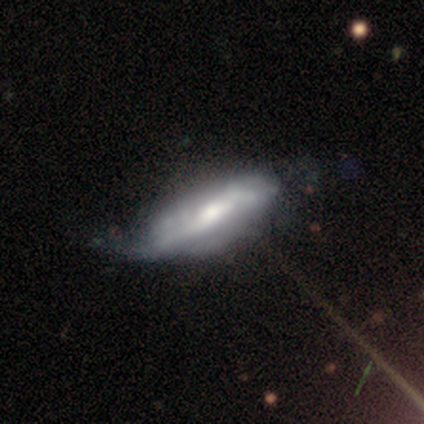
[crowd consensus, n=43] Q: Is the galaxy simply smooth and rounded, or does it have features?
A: featured or disk — 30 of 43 (70%).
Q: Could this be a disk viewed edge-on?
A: no — 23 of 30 (77%).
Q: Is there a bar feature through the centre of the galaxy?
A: no — 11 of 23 (48%).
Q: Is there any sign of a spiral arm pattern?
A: yes — 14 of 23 (61%).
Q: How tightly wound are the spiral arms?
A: medium — 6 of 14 (43%).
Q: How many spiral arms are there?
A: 2 — 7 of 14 (50%).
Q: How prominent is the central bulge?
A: moderate — 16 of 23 (70%).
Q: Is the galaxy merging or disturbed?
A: minor disturbance — 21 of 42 (50%).